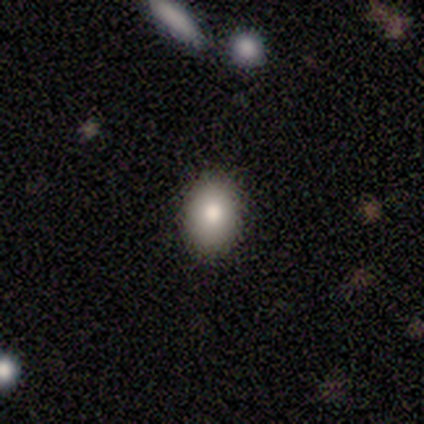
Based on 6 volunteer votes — This appears to be a smooth galaxy with no disk features (83%) that is round (60%). Merging: none (83%).